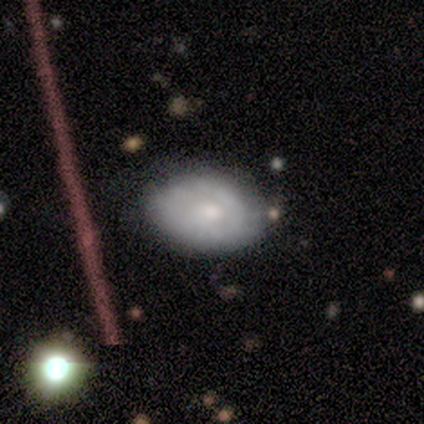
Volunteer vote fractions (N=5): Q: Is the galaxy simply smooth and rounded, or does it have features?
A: featured or disk — 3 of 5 (60%).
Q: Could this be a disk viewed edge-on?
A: no — 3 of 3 (100%).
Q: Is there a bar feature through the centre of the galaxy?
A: no — 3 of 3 (100%).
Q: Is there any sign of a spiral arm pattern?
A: yes — 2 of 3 (67%).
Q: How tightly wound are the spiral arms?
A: medium — 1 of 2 (50%, tied with loose).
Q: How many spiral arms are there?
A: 1 — 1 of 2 (50%, tied with can't tell).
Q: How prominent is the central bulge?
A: large — 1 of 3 (33%, tied with moderate and small).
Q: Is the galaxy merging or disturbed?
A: none — 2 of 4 (50%).